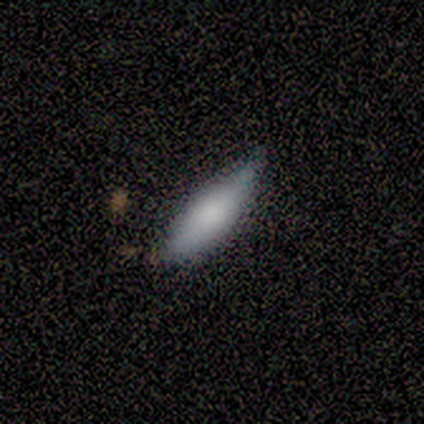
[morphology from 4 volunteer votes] A smooth galaxy with no disk features (75%) that is cigar-shaped (67%). Merging: minor disturbance (67%).